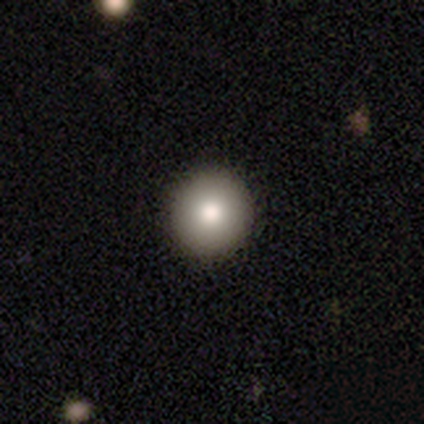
Smooth or featured?
  - smooth: 100% *
  - featured or disk: 0%
  - star or artifact: 0%
How rounded?
  - round: 100% *
  - in between: 0%
  - cigar-shaped: 0%
Merging?
  - none: 75% *
  - minor disturbance: 25%
  - major disturbance: 0%
  - merger: 0%